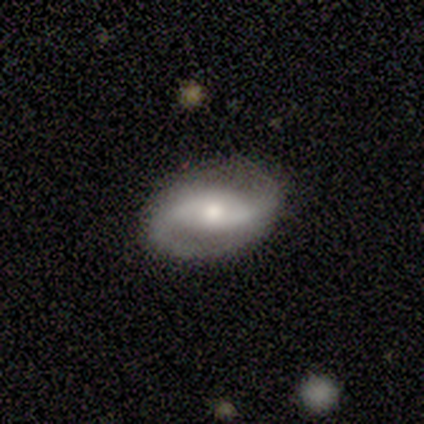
Overall: featured or disk (100%). Edge-on disk: no (100%). Bar: weak (60%; no 40%). Spiral arms: yes (100%). Spiral arm count: 2 (100%). Spiral winding: loose (80%). Bulge size: moderate (80%). Merging: none (100%).